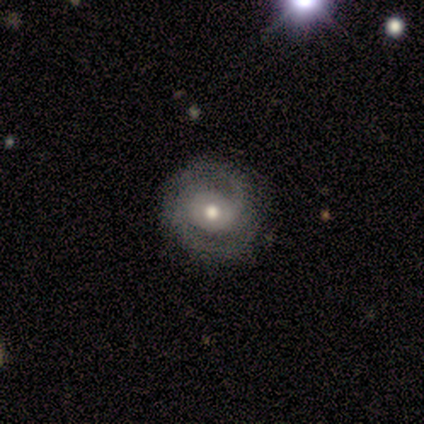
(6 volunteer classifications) Q: Smooth or featured?
A: featured or disk (67%); runner-up: smooth (17%)
Q: Edge-on disk?
A: no (100%)
Q: Bar?
A: no (75%); runner-up: weak (25%)
Q: Spiral arms?
A: yes (100%)
Q: Spiral winding?
A: medium (75%); runner-up: tight (25%)
Q: Spiral arm count?
A: 2 (100%)
Q: Bulge size?
A: moderate (100%)
Q: Merging?
A: none (60%); runner-up: minor disturbance (40%)